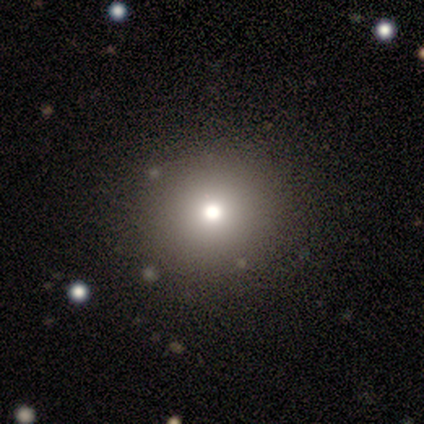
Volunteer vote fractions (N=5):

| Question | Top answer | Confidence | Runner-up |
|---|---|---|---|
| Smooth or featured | smooth | 60% | featured or disk (20%) |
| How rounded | round | 100% | — |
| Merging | none | 75% | minor disturbance (25%) |